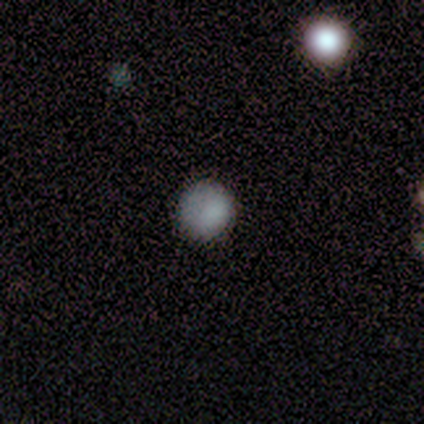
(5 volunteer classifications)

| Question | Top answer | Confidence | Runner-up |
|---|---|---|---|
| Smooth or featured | smooth | 100% | — |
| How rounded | round | 100% | — |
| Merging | none | 60% | minor disturbance (40%) |